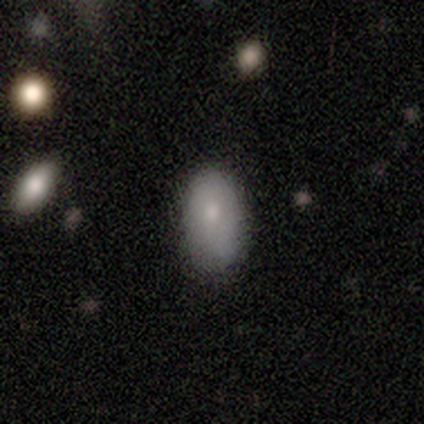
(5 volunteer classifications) Morphology: type=smooth (80%); roundness=in between (100%); merging=none (80%).